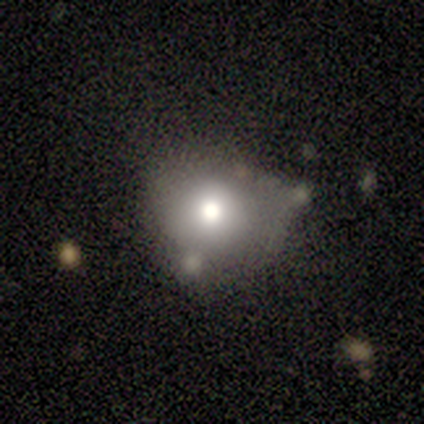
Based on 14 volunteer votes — A smooth galaxy with no disk features (79%) that is round (82%). Merging: minor disturbance (45%).